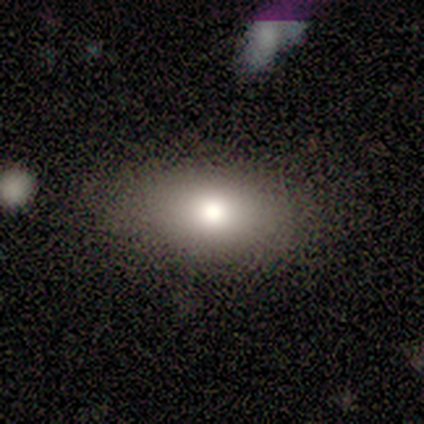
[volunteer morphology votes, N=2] smooth_or_featured: smooth (p=0.50) [tied with: featured or disk p=0.50]
how_rounded: in between (p=1.00)
merging: none (p=1.00)